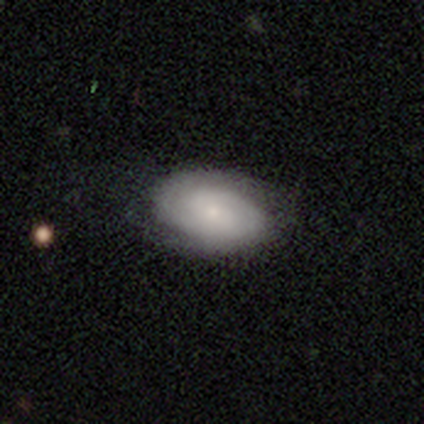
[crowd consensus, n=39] Volunteers were most divided on "smooth or featured": featured or disk: 49%, smooth: 46%, star or artifact: 5%. More confident: edge-on disk — no (100%); spiral arms — yes (95%); bulge size — small (84%); merging — none (65%); spiral winding — tight (61%); spiral arm count — 2 (61%); bar — no (58%).